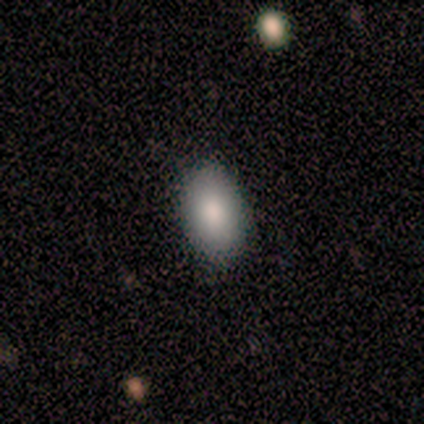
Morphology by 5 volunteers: Smooth or featured?
  - smooth: 80% *
  - featured or disk: 20%
  - star or artifact: 0%
How rounded?
  - in between: 100% *
  - round: 0%
  - cigar-shaped: 0%
Merging?
  - none: 60% *
  - minor disturbance: 20%
  - major disturbance: 20%
  - merger: 0%